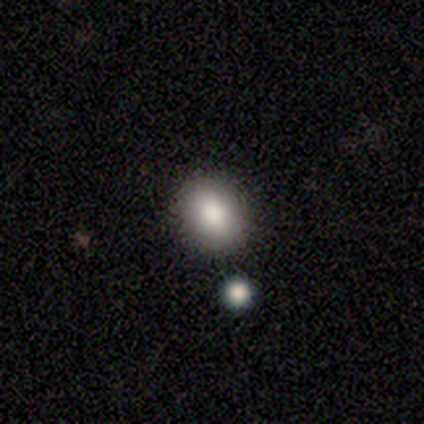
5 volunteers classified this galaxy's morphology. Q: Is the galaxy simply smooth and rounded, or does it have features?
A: smooth — 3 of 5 (60%).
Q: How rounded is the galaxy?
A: round — 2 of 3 (67%).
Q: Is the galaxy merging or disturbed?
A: none — 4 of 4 (100%).